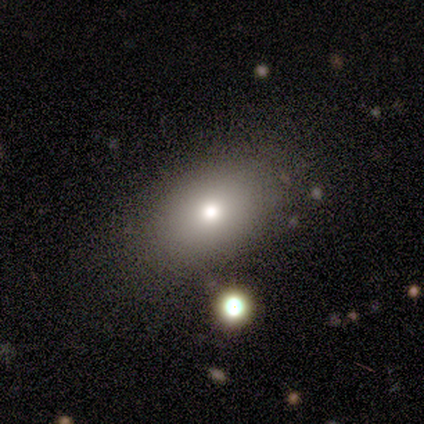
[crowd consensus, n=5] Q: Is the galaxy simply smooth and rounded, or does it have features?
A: smooth — 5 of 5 (100%).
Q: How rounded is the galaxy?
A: in between — 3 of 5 (60%).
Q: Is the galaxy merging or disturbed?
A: none — 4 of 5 (80%).